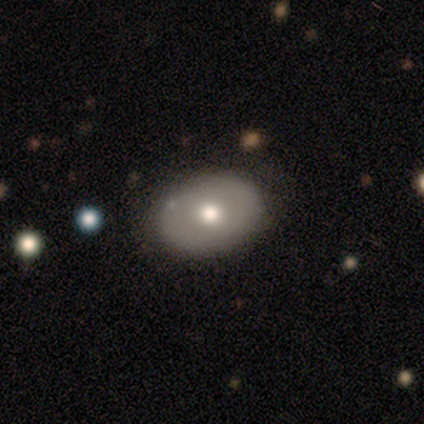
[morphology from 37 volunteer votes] Q: Smooth or featured?
A: smooth (65%); runner-up: featured or disk (22%)
Q: How rounded?
A: in between (88%); runner-up: round (12%)
Q: Merging?
A: none (66%); runner-up: minor disturbance (22%)